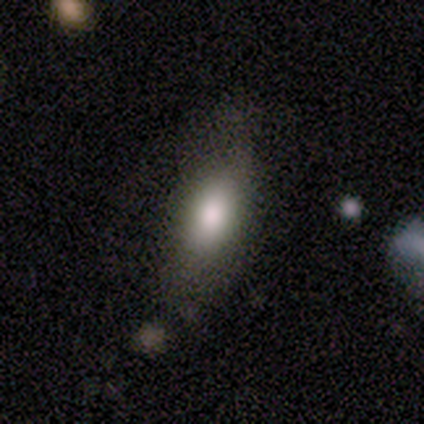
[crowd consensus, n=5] A smooth galaxy with no disk features (80%) that is in between round and cigar-shaped (100%). Merging: none (100%).